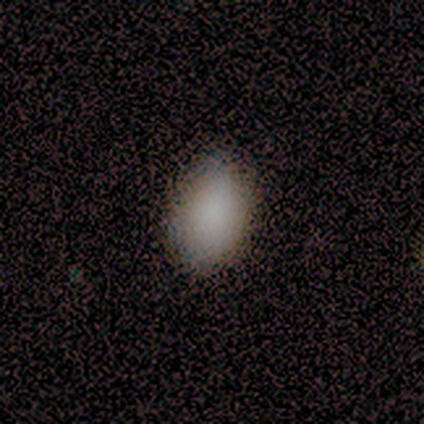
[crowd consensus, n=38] smooth-or-featured: smooth: 84% | star or artifact: 11% | featured or disk: 5%
  how-rounded: in between: 84% | round: 12% | cigar-shaped: 3%
  merging: none: 88% | minor disturbance: 12% | major disturbance: 0% | merger: 0%